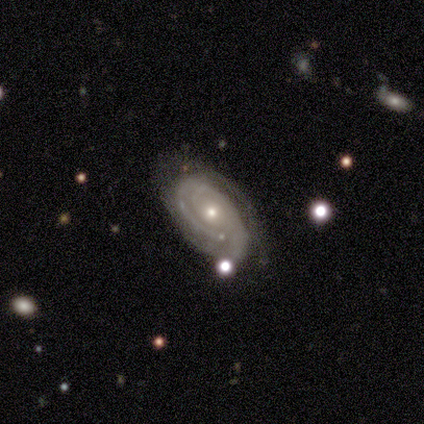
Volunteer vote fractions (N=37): Volunteers were most divided on "spiral arm count": 2: 39%, can't tell: 29%, 3: 16%, 4: 10%, 1: 6%, more than 4: 0%. More confident: smooth or featured — featured or disk (97%); edge-on disk — no (94%); spiral arms — yes (91%); spiral winding — tight (84%); bar — no (82%); bulge size — small (62%); merging — none (56%).